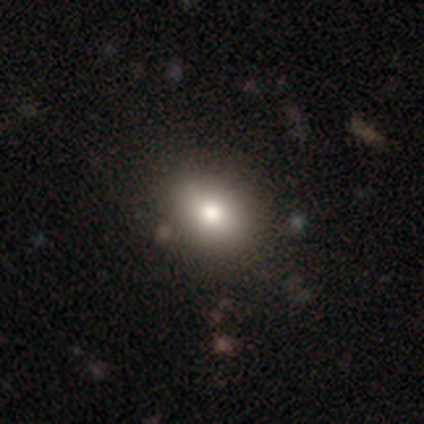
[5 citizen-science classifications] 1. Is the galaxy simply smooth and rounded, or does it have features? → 80% smooth, 20% featured or disk, 0% star or artifact.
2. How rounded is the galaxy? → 50% round (tied), 50% in between (tied), 0% cigar-shaped.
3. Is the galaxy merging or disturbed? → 80% none, 20% minor disturbance, 0% major disturbance, 0% merger.